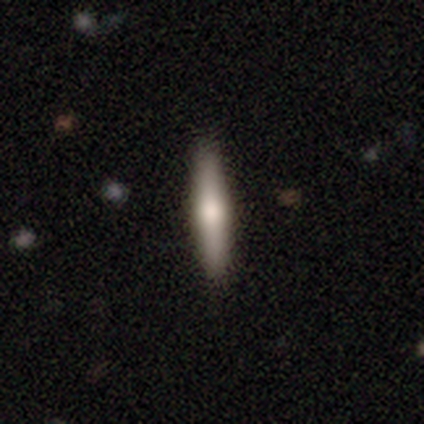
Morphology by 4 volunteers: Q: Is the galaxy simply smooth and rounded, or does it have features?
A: smooth — 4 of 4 (100%).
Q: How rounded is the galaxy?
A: cigar-shaped — 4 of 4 (100%).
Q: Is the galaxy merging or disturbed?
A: none — 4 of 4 (100%).